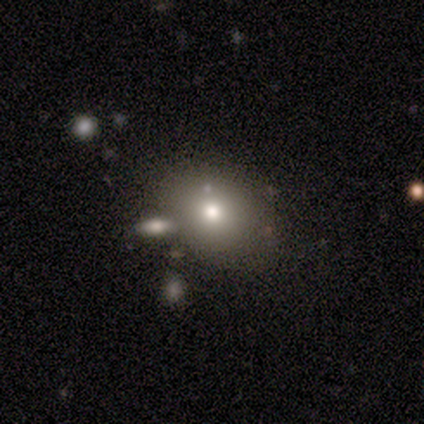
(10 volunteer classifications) Volunteers were most divided on "merging": none: 62%, merger: 38%, minor disturbance: 0%, major disturbance: 0%. More confident: how rounded — in between (71%); smooth or featured — smooth (70%).